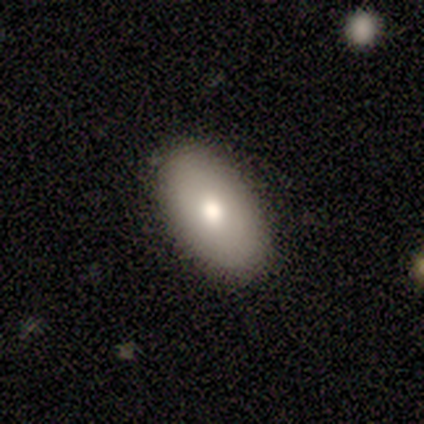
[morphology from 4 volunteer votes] Smooth or featured?
  - smooth: 100% *
  - featured or disk: 0%
  - star or artifact: 0%
How rounded?
  - in between: 100% *
  - round: 0%
  - cigar-shaped: 0%
Merging?
  - none: 100% *
  - minor disturbance: 0%
  - major disturbance: 0%
  - merger: 0%